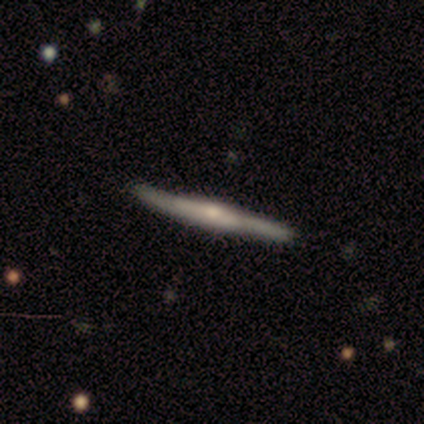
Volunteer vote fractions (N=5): This appears to be a featured or disk galaxy (60%) viewed edge-on (100%) with a rounded central bulge (67%). Merging: none (60%).